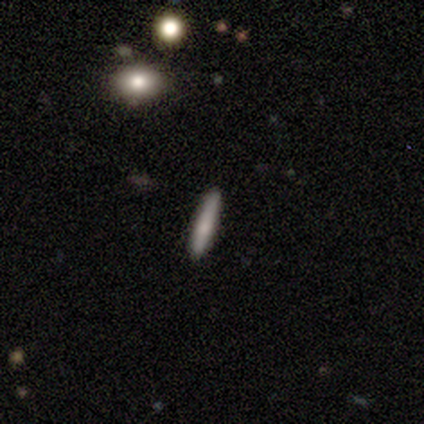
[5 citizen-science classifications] Smooth or featured?
  - smooth: 60% *
  - featured or disk: 40%
  - star or artifact: 0%
How rounded?
  - cigar-shaped: 100% *
  - round: 0%
  - in between: 0%
Merging?
  - none: 80% *
  - minor disturbance: 20%
  - major disturbance: 0%
  - merger: 0%